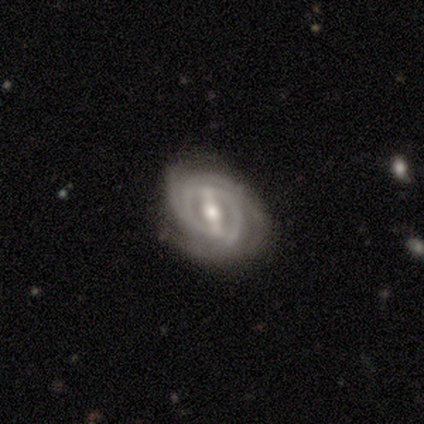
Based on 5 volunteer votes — This is likely a featured or disk galaxy (60%). It is clearly not viewed edge-on (100%). Bar: clearly strong (100%). Spiral arm pattern: clearly yes (100%). Spiral arm count: marginally 3 (33%, tied with 4 and can't tell). Spiral winding: likely tight (67%). Central bulge: likely moderate (67%). Merging: marginally none (40%, tied with minor disturbance).